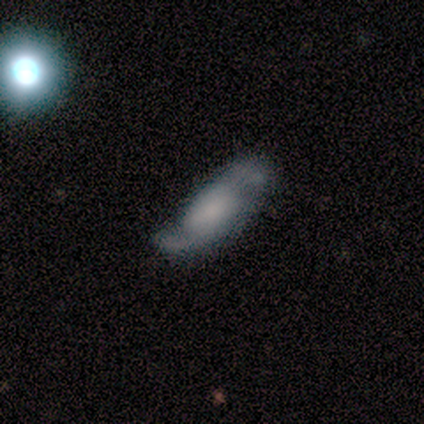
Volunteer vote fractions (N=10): smooth_or_featured: featured or disk (p=0.60) [alt: smooth p=0.40]
disk_edge_on: no (p=1.00)
bar: weak (p=0.50) [alt: no p=0.33]
has_spiral_arms: yes (p=1.00)
spiral_winding: loose (p=0.83) [alt: medium p=0.17]
spiral_arm_count: 2 (p=0.83) [alt: 1 p=0.17]
bulge_size: large (p=0.33) [tied with: none p=0.33]
merging: none (p=0.80) [alt: minor disturbance p=0.10]